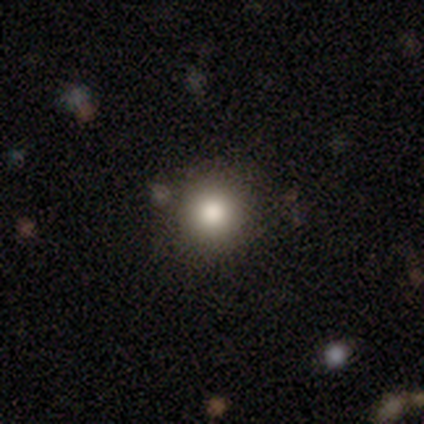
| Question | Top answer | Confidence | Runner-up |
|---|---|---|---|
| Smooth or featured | smooth | 74% | star or artifact (16%) |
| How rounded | round | 96% | in between (4%) |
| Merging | none | 94% | minor disturbance (6%) |